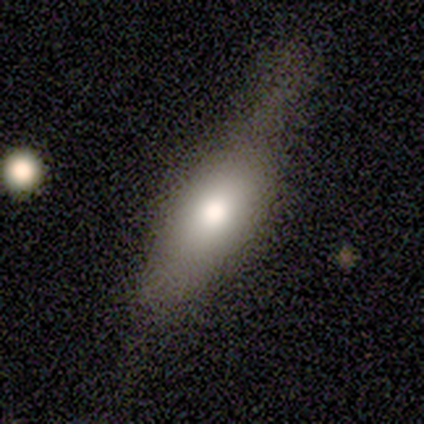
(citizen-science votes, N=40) This is likely a smooth galaxy (68%). How rounded: likely in between (70%). Merging: marginally none (44%).